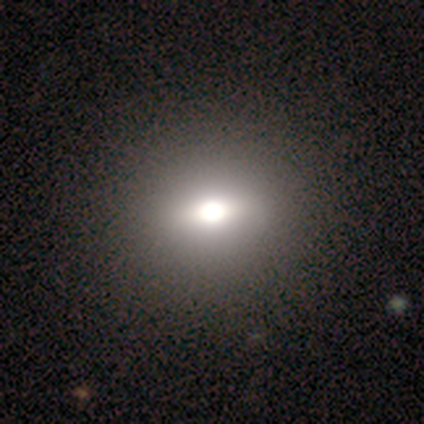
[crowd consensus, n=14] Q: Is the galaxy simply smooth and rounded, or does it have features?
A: smooth — 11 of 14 (79%).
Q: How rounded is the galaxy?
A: round — 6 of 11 (55%).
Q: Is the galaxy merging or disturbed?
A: none — 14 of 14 (100%).